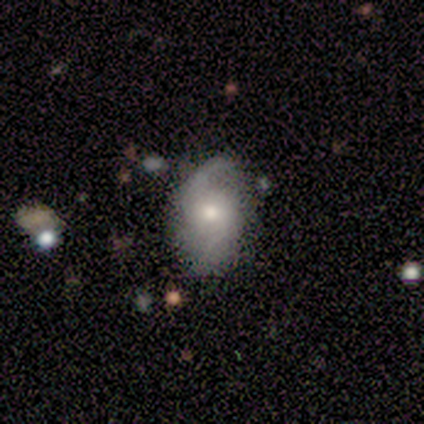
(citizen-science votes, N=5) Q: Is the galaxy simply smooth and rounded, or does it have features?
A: featured or disk — 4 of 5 (80%).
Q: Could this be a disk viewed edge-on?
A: no — 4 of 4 (100%).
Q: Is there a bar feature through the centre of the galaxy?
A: weak — 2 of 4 (50%, tied with no).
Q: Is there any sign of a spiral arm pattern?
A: yes — 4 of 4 (100%).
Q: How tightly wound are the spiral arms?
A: medium — 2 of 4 (50%, tied with loose).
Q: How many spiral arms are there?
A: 2 — 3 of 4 (75%).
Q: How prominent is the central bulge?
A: moderate — 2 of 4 (50%).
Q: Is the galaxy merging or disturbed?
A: minor disturbance — 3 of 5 (60%).